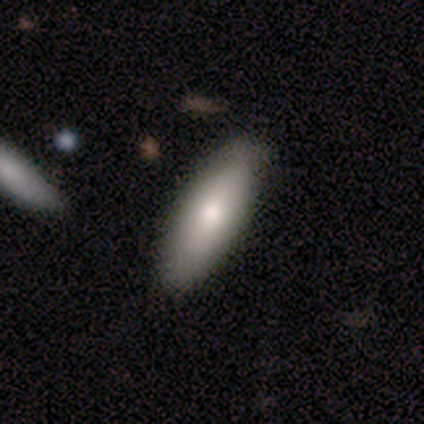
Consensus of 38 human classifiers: This is clearly a smooth galaxy (87%). How rounded: likely in between (67%). Merging: clearly none (86%).